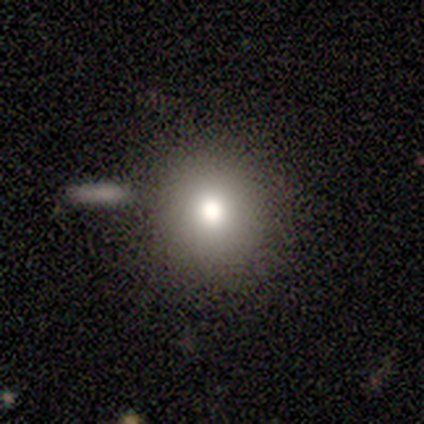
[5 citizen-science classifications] This appears to be a smooth galaxy with no disk features (80%) that is round (100%). Merging: none (60%).